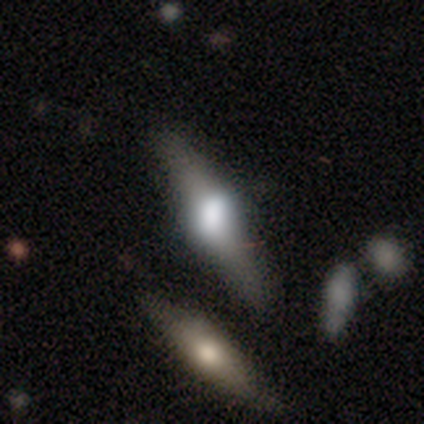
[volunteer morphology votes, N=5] This appears to be a smooth galaxy with no disk features (40%, tied with featured or disk) that is cigar-shaped (100%). Merging: none (75%).